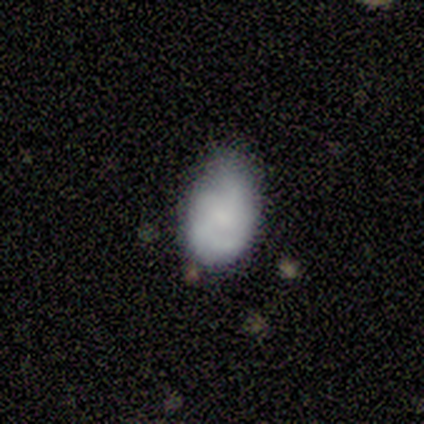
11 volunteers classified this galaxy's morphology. smooth-or-featured: smooth: 82% | featured or disk: 18% | star or artifact: 0%
  how-rounded: in between: 100% | round: 0% | cigar-shaped: 0%
  merging: none: 45% (tied) | minor disturbance: 45% (tied) | major disturbance: 9% | merger: 0%